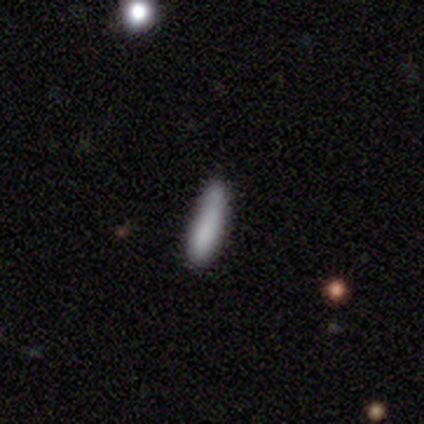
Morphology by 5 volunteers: smooth-or-featured: smooth: 100% | featured or disk: 0% | star or artifact: 0%
  how-rounded: in between: 60% | cigar-shaped: 40% | round: 0%
  merging: none: 60% | minor disturbance: 20% | major disturbance: 20% | merger: 0%